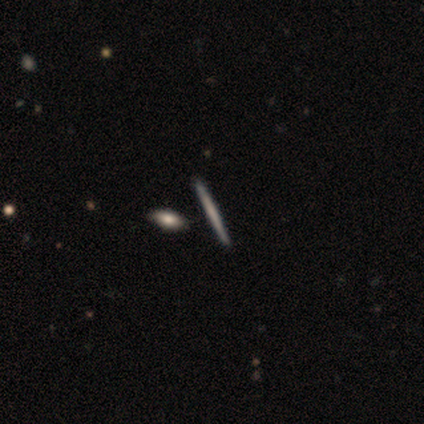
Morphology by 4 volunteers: Smooth or featured: smooth — 50% (tied with featured or disk — 50%)
How rounded: cigar-shaped — 100%
Merging: none — 100%